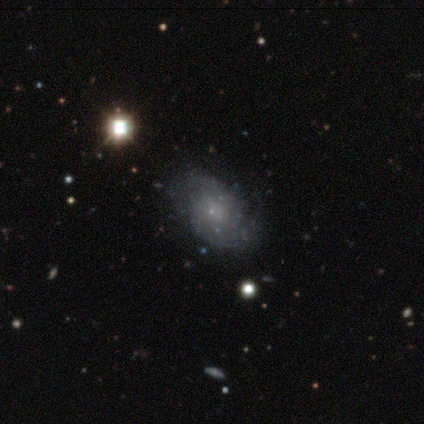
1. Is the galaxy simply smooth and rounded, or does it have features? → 72% featured or disk, 15% star or artifact, 12% smooth.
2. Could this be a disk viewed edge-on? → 97% no, 3% yes.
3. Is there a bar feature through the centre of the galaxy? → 79% no, 14% weak, 7% strong.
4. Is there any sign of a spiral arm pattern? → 82% yes, 18% no.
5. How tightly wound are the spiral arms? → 43% medium, 30% tight, 26% loose.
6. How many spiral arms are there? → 70% 2, 17% can't tell, 4% 1, 4% 3, 4% 4, 0% more than 4.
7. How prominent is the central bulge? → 46% small, 32% none, 18% moderate, 4% dominant, 0% large.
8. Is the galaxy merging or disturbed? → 38% none, 18% major disturbance, 3% minor disturbance, 3% merger.